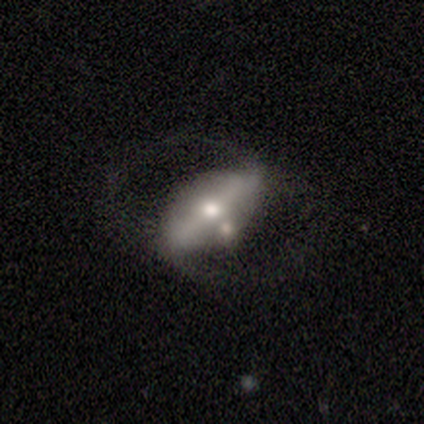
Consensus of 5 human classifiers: smooth_or_featured: featured or disk (p=0.60) [alt: smooth p=0.40]
disk_edge_on: no (p=1.00)
bar: strong (p=0.67) [alt: no p=0.33]
has_spiral_arms: yes (p=1.00)
spiral_winding: loose (p=1.00)
spiral_arm_count: 2 (p=1.00)
bulge_size: moderate (p=0.67) [alt: large p=0.33]
merging: none (p=0.60) [alt: major disturbance p=0.20]